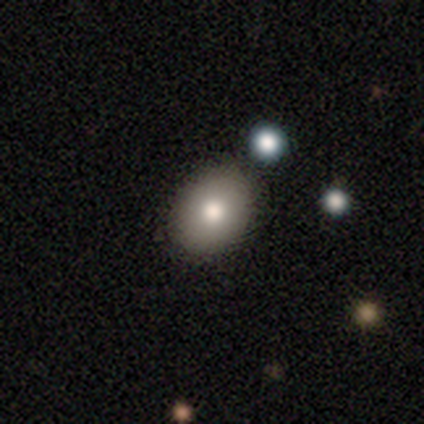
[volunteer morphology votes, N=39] Smooth or featured: smooth — 82% (featured or disk — 13%)
How rounded: in between — 75% (round — 25%)
Merging: none — 51% (minor disturbance — 11%)